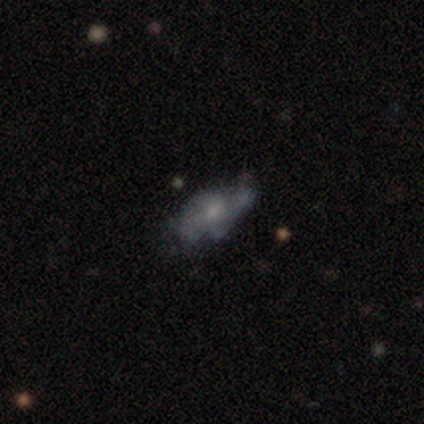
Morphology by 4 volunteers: smooth-or-featured: smooth: 75% | featured or disk: 25% | star or artifact: 0%
  how-rounded: in between: 100% | round: 0% | cigar-shaped: 0%
  merging: none: 75% | major disturbance: 25% | minor disturbance: 0% | merger: 0%